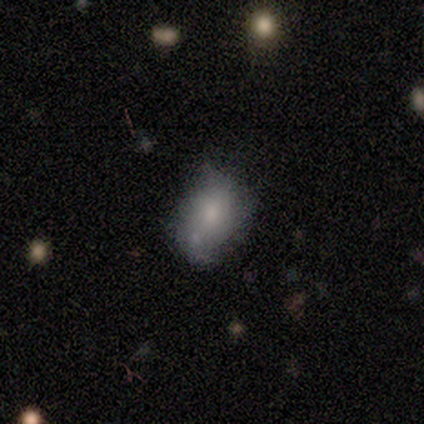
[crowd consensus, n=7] A smooth galaxy with no disk features (71%) that is in between round and cigar-shaped (100%).

Vote fractions:
- Smooth or featured? smooth: 71% / featured or disk: 29% / star or artifact: 0%
- How rounded? in between: 100% / round: 0% / cigar-shaped: 0%
- Merging? none: 43% (tied) / minor disturbance: 43% (tied) / merger: 14% / major disturbance: 0%